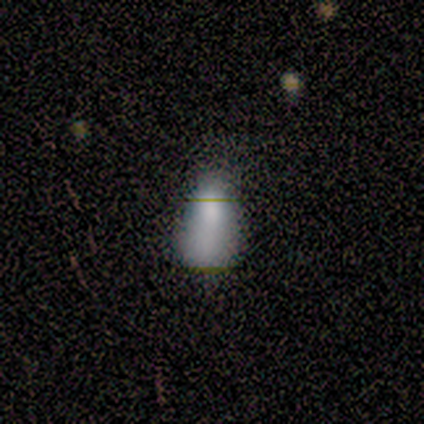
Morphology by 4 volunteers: This is possibly a smooth galaxy (50%, tied with featured or disk). How rounded: possibly round (50%, tied with cigar-shaped). Merging: possibly none (50%).